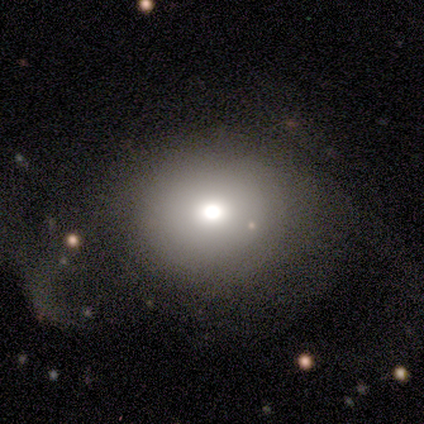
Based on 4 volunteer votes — A featured or disk galaxy (75%) with no bar (100%), no spiral arms (100%) and a moderate central bulge (100%). Merging: major disturbance (75%).